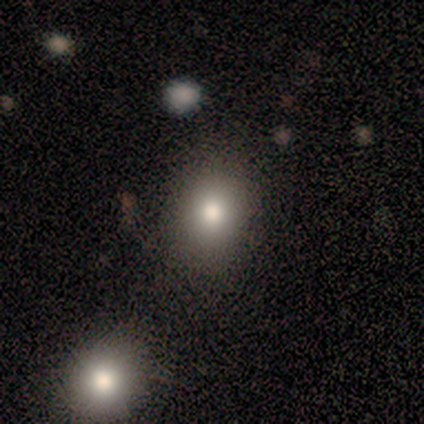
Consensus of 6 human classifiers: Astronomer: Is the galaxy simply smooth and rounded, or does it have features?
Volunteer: smooth — 67%.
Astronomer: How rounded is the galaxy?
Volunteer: in between — 75%.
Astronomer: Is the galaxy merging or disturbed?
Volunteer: none — 100%.